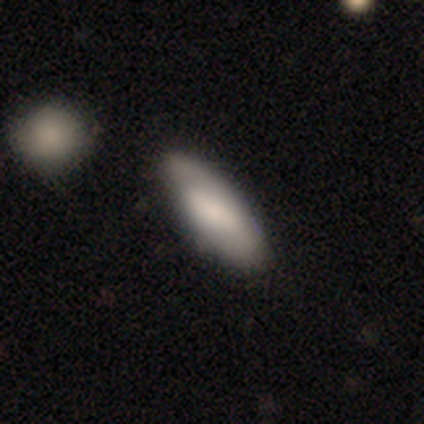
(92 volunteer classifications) This appears to be a smooth galaxy with no disk features (75%) that is in between round and cigar-shaped (62%). Merging: none (76%).